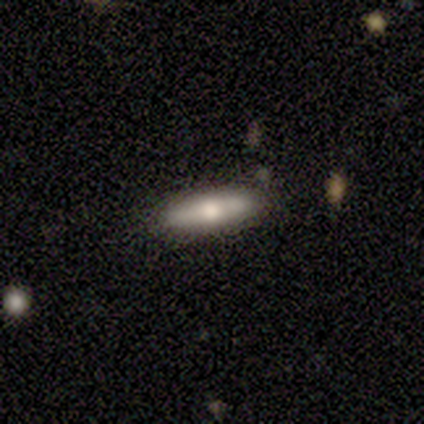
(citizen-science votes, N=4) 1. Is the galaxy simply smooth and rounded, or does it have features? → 75% featured or disk, 25% smooth, 0% star or artifact.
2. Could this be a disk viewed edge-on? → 100% yes, 0% no.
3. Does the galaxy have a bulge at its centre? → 100% rounded, 0% boxy, 0% none.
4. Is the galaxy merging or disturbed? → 75% none, 25% minor disturbance, 0% major disturbance, 0% merger.